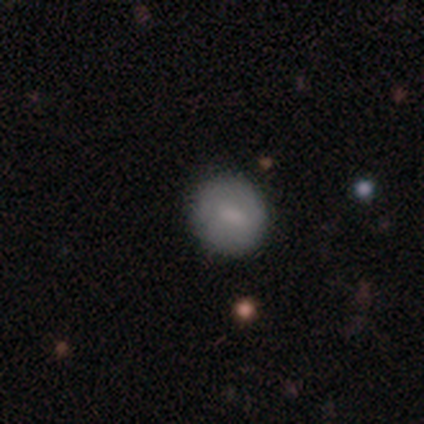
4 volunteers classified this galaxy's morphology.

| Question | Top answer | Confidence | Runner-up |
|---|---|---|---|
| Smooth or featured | smooth | 50% | tied: featured or disk (50%) |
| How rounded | round | 100% | — |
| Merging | none | 100% | — |